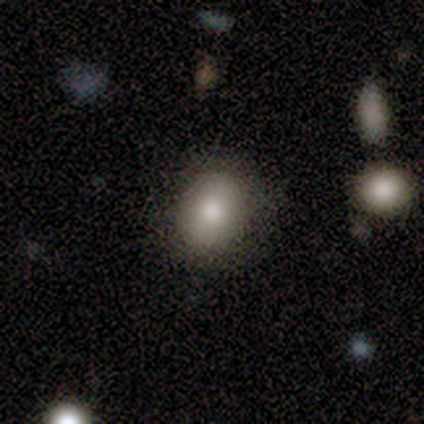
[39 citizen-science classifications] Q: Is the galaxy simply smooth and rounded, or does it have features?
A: smooth — 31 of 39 (79%).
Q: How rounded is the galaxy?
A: round — 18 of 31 (58%).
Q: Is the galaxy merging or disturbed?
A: none — 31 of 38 (82%).